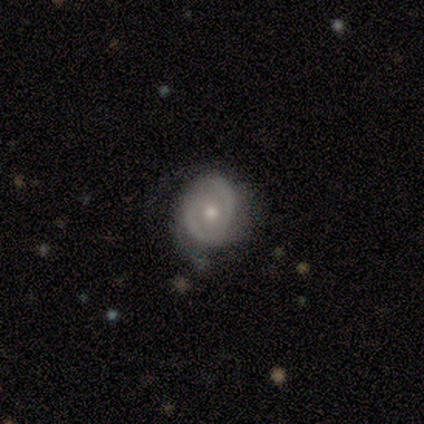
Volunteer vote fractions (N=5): featured or disk 60%, smooth 40%, star or artifact 0%. Down the decision tree: edge-on disk — no (100%); bar — no (67%); spiral arms — yes (67%); spiral arm count — can't tell (100%); spiral winding — medium (50%, tied with loose); bulge size — small (67%); merging — none (60%).